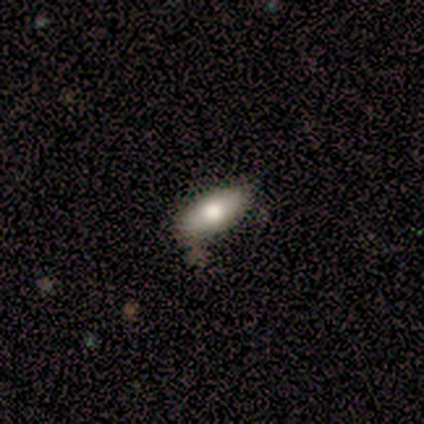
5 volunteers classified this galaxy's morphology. Overall: featured or disk (60%; smooth 40%). Edge-on disk: no (100%). Bar: no (100%). Spiral arms: no (100%). Bulge size: moderate (67%; large 33%). Merging: none (80%).